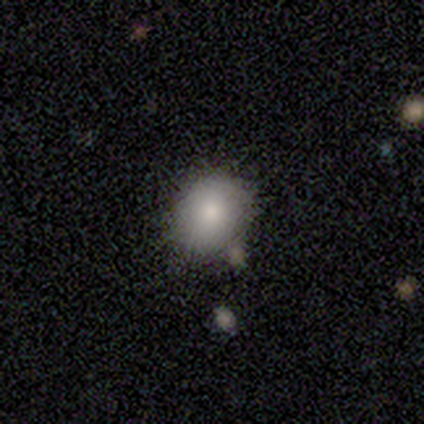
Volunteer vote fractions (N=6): Q: Smooth or featured?
A: smooth (83%); runner-up: star or artifact (17%)
Q: How rounded?
A: round (40%); tied with: in between (40%)
Q: Merging?
A: none (80%); runner-up: minor disturbance (20%)